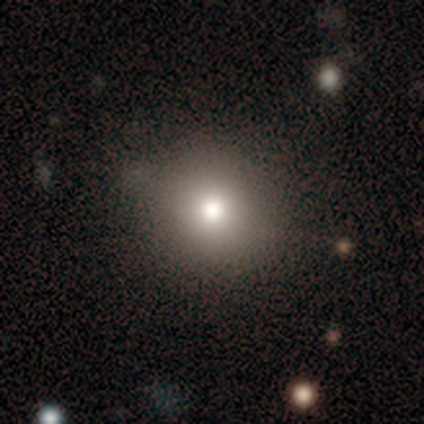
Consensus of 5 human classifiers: Smooth or featured: smooth — 100%
How rounded: round — 100%
Merging: none — 60% (minor disturbance — 40%)